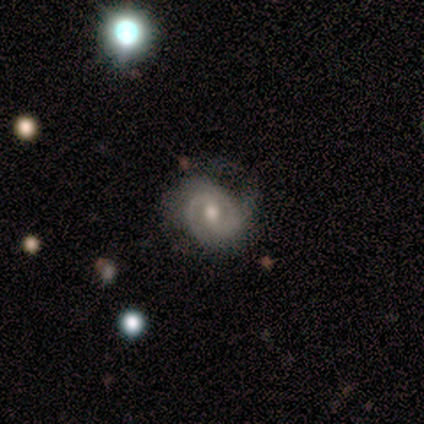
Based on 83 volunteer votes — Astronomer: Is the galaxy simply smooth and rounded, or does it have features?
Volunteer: featured or disk — 86%.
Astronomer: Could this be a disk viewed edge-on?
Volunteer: no — 100%.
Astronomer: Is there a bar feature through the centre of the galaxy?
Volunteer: no — 52% (runner-up: weak, 37%).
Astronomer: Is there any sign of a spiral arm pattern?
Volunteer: yes — 90%.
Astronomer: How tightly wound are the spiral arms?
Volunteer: tight — 61%.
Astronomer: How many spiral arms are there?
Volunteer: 2 — 69%.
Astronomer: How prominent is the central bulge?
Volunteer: moderate — 73%.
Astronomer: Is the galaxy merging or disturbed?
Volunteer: none — 46% (runner-up: minor disturbance, 35%).